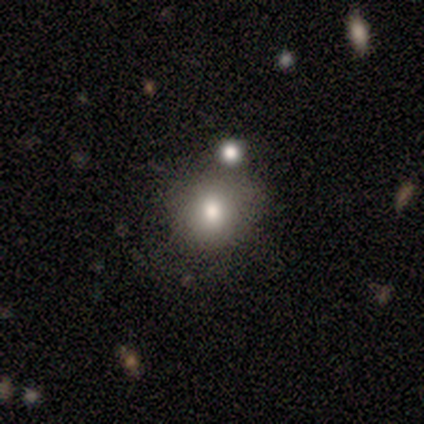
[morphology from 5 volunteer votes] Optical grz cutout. It shows a smooth galaxy with no disk features (100%) that is round (80%). Merging: none (60%).